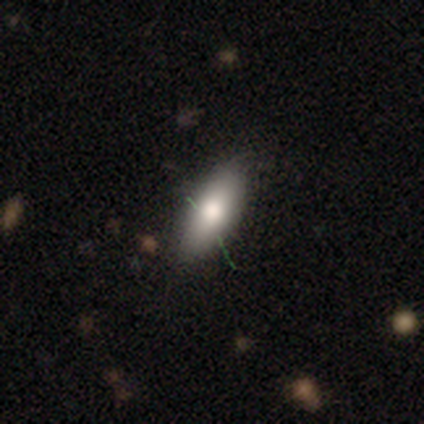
Volunteers were most divided on "how rounded": in between: 67%, cigar-shaped: 33%, round: 0%. More confident: smooth or featured — smooth (79%); merging — none (75%).